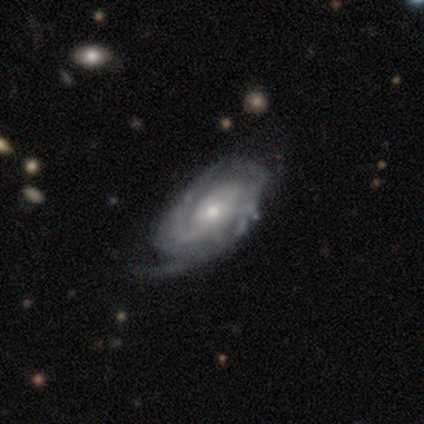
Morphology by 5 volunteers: Smooth or featured? 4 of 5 (80%) said featured or disk. Edge-on disk? 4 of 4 (100%) said no. Bar? 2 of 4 (50%) said no. Spiral arms? 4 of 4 (100%) said yes. Spiral winding? 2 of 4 (50%) said medium. Spiral arm count? 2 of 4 (50%) said 3. Bulge size? 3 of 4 (75%) said small. Merging? 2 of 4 (50%) said none.